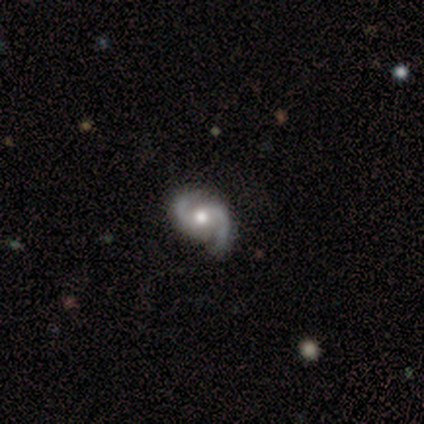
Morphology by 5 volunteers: smooth-or-featured: featured or disk: 60% | smooth: 40% | star or artifact: 0%
  disk-edge-on: no: 100% | yes: 0%
    bar: strong: 33% (tied) | weak: 33% (tied) | no: 33% (tied)
    has-spiral-arms: yes: 100% | no: 0%
      spiral-winding: medium: 100% | tight: 0% | loose: 0%
      spiral-arm-count: 2: 100% | 1: 0% | 3: 0% | 4: 0% | more than 4: 0% | can't tell: 0%
    bulge-size: moderate: 67% | large: 33% | dominant: 0% | small: 0% | none: 0%
  merging: none: 100% | minor disturbance: 0% | major disturbance: 0% | merger: 0%